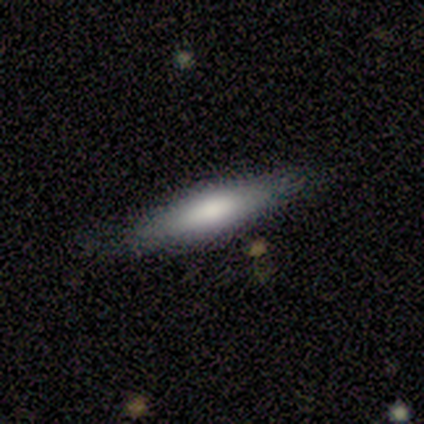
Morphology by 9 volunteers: Smooth or featured: smooth — 67% (featured or disk — 22%)
How rounded: cigar-shaped — 100%
Merging: none — 100%